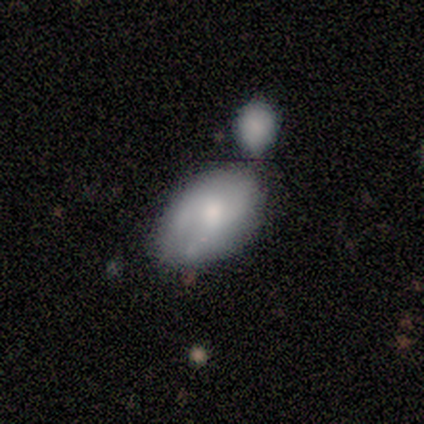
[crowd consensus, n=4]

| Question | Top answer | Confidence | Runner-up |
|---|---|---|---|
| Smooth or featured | smooth | 100% | — |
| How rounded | in between | 100% | — |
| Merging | none | 75% | merger (25%) |